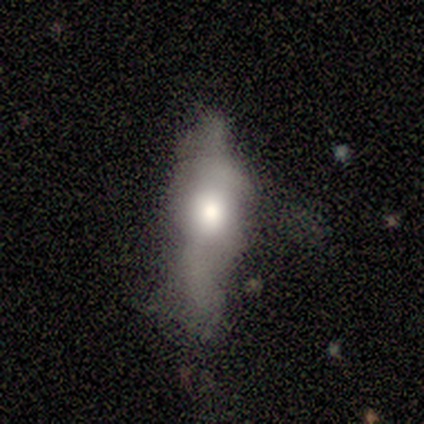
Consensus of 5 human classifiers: This appears to be a featured or disk galaxy (60%) viewed edge-on (67%) with a rounded central bulge (100%). Merging: none (60%).